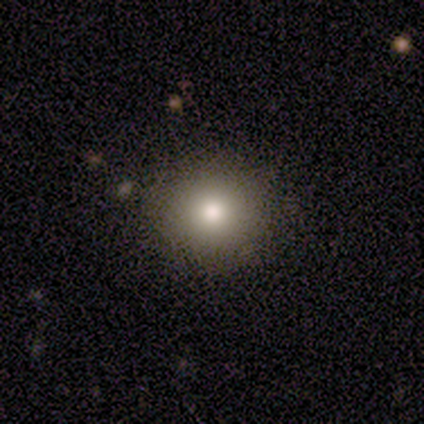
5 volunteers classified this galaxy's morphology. smooth_or_featured: smooth (p=0.60) [alt: star or artifact p=0.40]
how_rounded: round (p=1.00)
merging: none (p=1.00)